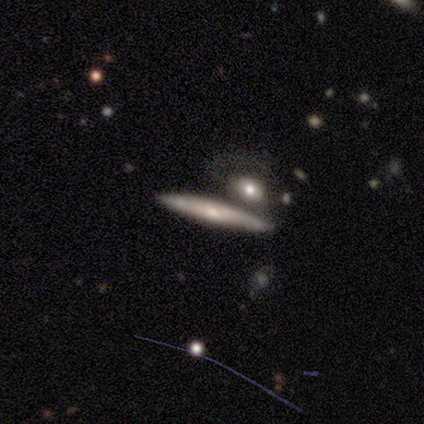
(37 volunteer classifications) smooth-or-featured: featured or disk: 62% | smooth: 32% | star or artifact: 5%
  disk-edge-on: yes: 100% | no: 0%
    edge-on-bulge: none: 48% | rounded: 43% | boxy: 9%
  merging: none: 63% | merger: 17% | minor disturbance: 14% | major disturbance: 6%